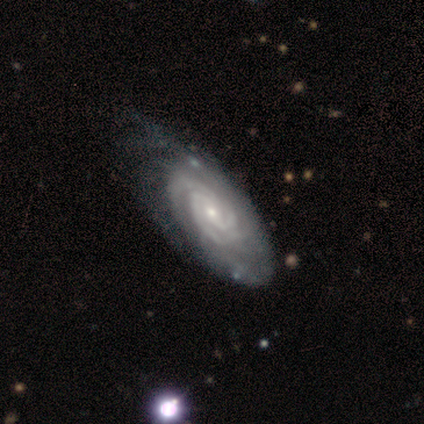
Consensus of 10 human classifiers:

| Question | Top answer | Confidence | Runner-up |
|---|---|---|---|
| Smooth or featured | featured or disk | 100% | — |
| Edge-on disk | no | 60% | yes (40%) |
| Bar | weak | 50% | no (33%) |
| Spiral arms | yes | 100% | — |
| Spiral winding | tight | 83% | medium (17%) |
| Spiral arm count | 3 | 50% | more than 4 (33%) |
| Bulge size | small | 83% | moderate (17%) |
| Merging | none | 60% | minor disturbance (20%) |